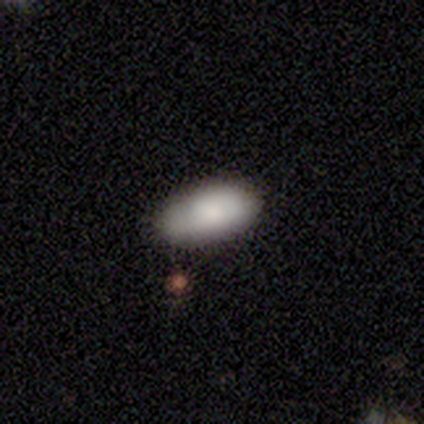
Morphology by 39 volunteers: Smooth or featured: smooth — 77% (featured or disk — 18%)
How rounded: in between — 93% (round — 3%)
Merging: none — 73% (minor disturbance — 22%)